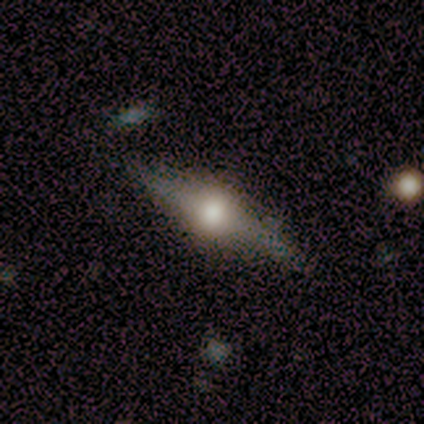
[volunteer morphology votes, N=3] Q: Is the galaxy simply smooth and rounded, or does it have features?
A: featured or disk — 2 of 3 (67%).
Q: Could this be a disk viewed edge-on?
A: yes — 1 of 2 (50%, tied with no).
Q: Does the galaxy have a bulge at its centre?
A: rounded — 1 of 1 (100%).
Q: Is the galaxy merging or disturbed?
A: none — 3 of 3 (100%).